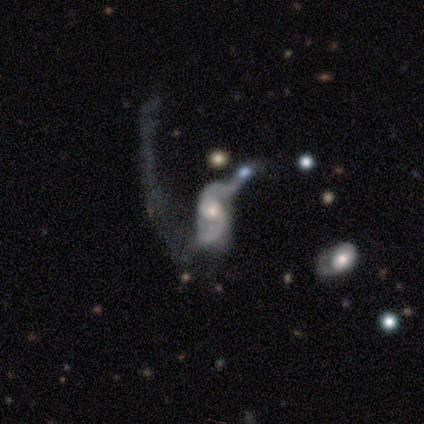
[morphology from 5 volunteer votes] Smooth or featured? 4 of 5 (80%) said featured or disk. Edge-on disk? 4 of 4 (100%) said no. Bar? 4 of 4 (100%) said no. Spiral arms? 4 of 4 (100%) said yes. Spiral winding? 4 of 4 (100%) said loose. Spiral arm count? 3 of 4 (75%) said 2. Bulge size? 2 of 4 (50%, tied with small) said moderate. Merging? 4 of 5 (80%) said major disturbance.